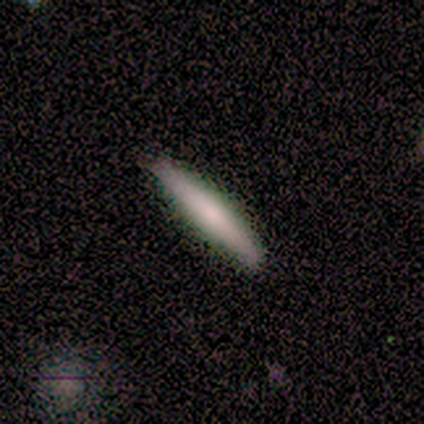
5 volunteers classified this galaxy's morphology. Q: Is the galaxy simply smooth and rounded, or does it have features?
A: smooth — 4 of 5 (80%).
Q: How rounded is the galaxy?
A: cigar-shaped — 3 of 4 (75%).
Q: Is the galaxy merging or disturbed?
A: none — 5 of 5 (100%).